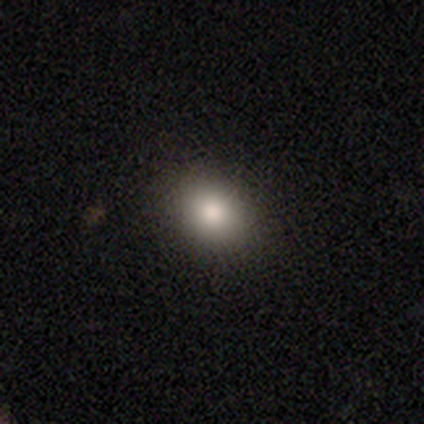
Morphology: type=smooth (83%); roundness=in between (59%); merging=none (94%).